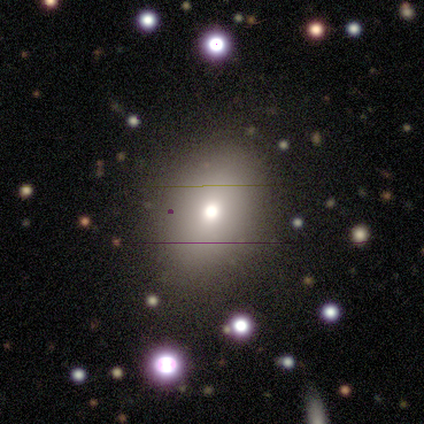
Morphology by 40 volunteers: A smooth galaxy with no disk features (75%) that is in between round and cigar-shaped (60%).

Vote fractions:
- Smooth or featured? smooth: 75% / featured or disk: 15% / star or artifact: 10%
- How rounded? in between: 60% / round: 40% / cigar-shaped: 0%
- Merging? none: 67% / merger: 6% / major disturbance: 3% / minor disturbance: 0%